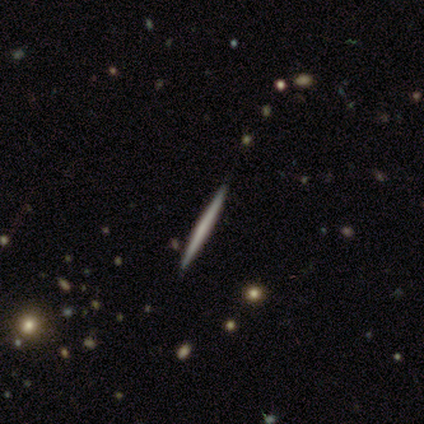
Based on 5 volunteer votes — This appears to be a featured or disk galaxy (60%) viewed edge-on (100%) with no central bulge (67%). Merging: none (100%).